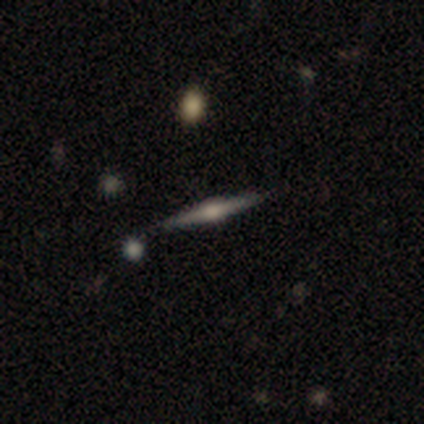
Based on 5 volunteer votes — Morphology: type=featured or disk (80%); edge-on=yes (100%); edge-on bulge=rounded (100%); merging=none (100%).